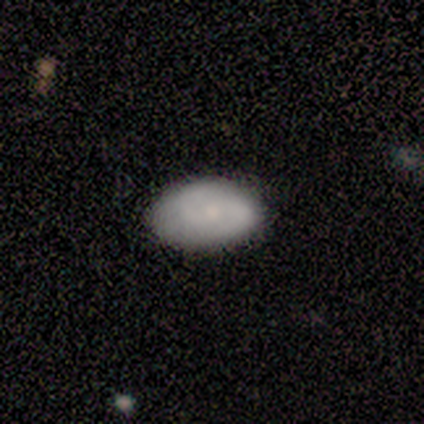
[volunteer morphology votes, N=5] Overall: smooth (60%; featured or disk 40%). How rounded: in between (100%). Merging: none (60%; minor disturbance 20%).